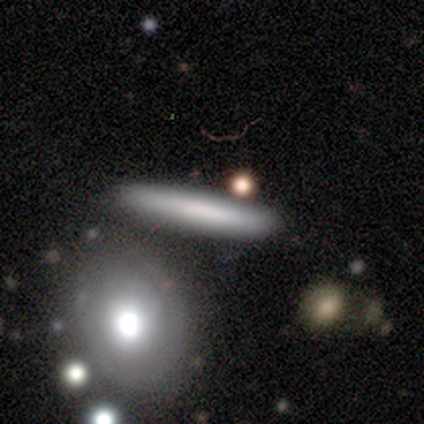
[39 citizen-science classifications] Morphology: type=smooth (59%); roundness=cigar-shaped (87%); merging=none (74%).